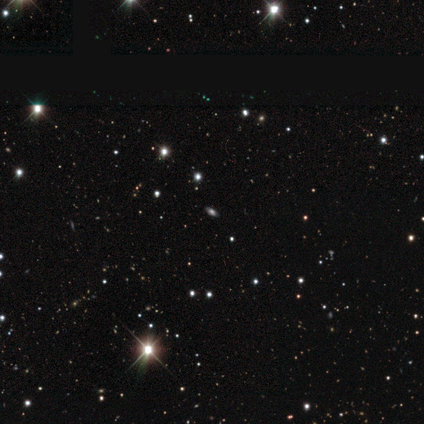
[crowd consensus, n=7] This appears to be a smooth galaxy with no disk features (57%) that is in between round and cigar-shaped (100%). Merging: none (100%).